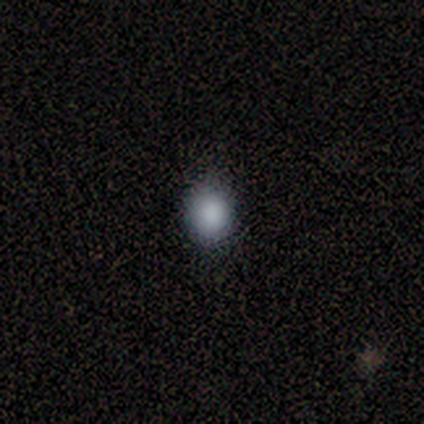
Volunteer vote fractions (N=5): smooth-or-featured: smooth: 100% | featured or disk: 0% | star or artifact: 0%
  how-rounded: in between: 60% | round: 40% | cigar-shaped: 0%
  merging: none: 60% | minor disturbance: 40% | major disturbance: 0% | merger: 0%